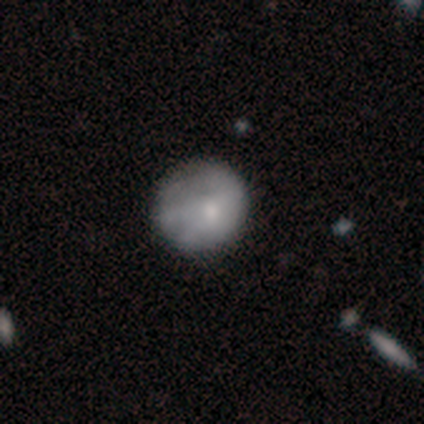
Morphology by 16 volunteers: A smooth galaxy with no disk features (69%) that is round (100%). Merging: none (88%).